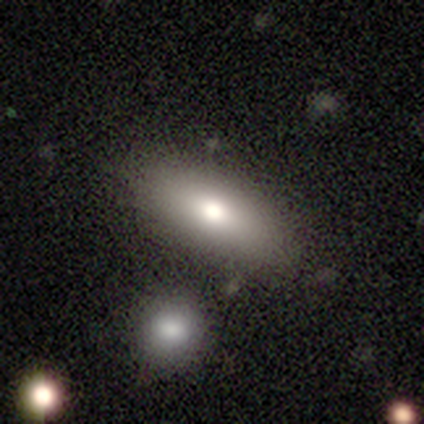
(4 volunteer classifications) smooth-or-featured: smooth: 50% | featured or disk: 25% | star or artifact: 25%
  how-rounded: in between: 100% | round: 0% | cigar-shaped: 0%
  merging: none: 100% | minor disturbance: 0% | major disturbance: 0% | merger: 0%